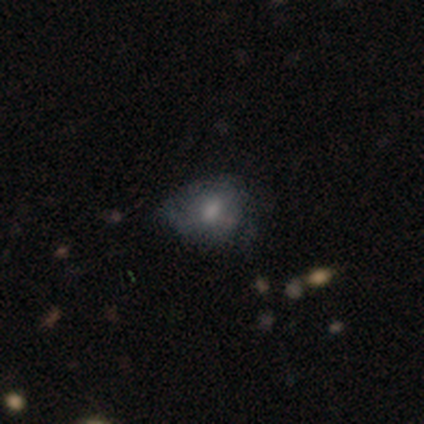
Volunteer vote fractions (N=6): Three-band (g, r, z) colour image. It shows a smooth galaxy with no disk features (50%) that is round (67%). Merging: minor disturbance (60%).